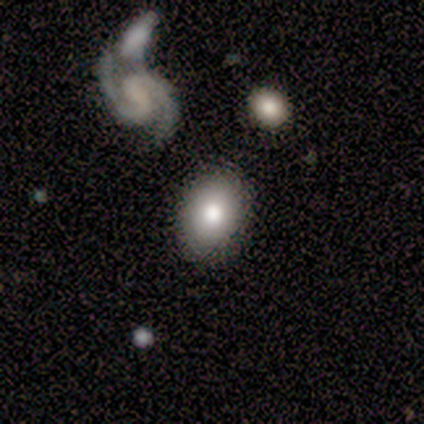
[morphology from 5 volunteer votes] A smooth galaxy with no disk features (60%) that is in between round and cigar-shaped (100%). Merging: none (80%).